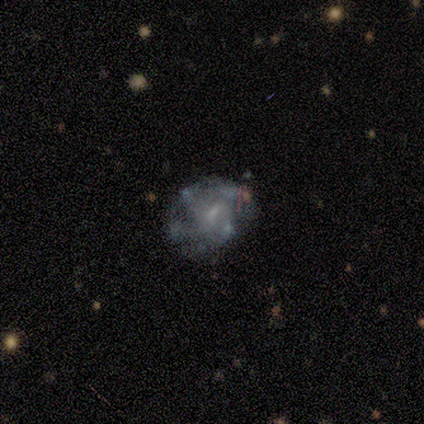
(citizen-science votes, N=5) Morphology: type=featured or disk (80%); edge-on=no (100%); bar=no (100%); spiral arms=yes (50%, tied with no); winding=tight (50%, tied with medium); arm count=3 (50%, tied with can't tell); bulge=none (50%); merging=none (40%, tied with minor disturbance).